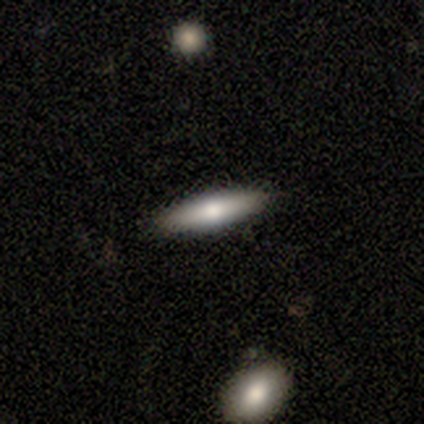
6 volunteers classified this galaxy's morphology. Smooth or featured?
  - smooth: 67% *
  - featured or disk: 33%
  - star or artifact: 0%
How rounded?
  - cigar-shaped: 75% *
  - in between: 25%
  - round: 0%
Merging?
  - none: 83% *
  - minor disturbance: 17%
  - major disturbance: 0%
  - merger: 0%